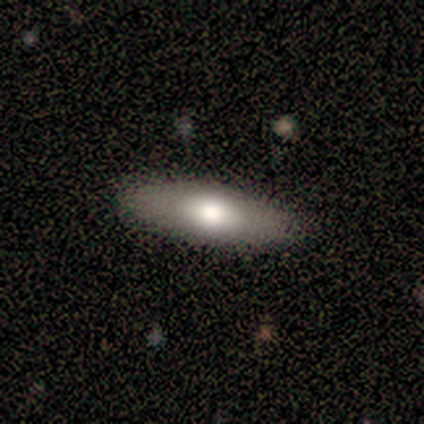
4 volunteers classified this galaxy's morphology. type=smooth (50%, tied with featured or disk); roundness=in between (100%); merging=none (75%).